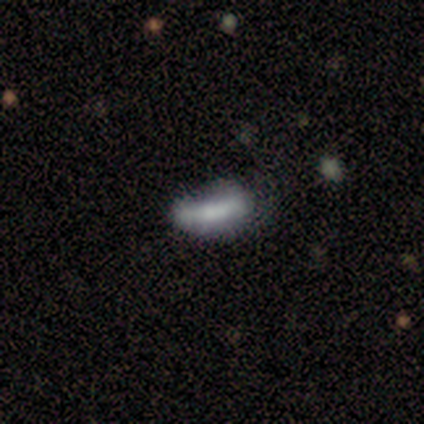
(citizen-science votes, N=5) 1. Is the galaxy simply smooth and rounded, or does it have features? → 80% featured or disk, 20% smooth, 0% star or artifact.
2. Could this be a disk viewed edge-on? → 75% no, 25% yes.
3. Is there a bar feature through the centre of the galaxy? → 33% strong (tied), 33% weak (tied), 33% no (tied).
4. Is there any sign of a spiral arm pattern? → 100% no, 0% yes.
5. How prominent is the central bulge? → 33% dominant (tied), 33% small (tied), 33% none (tied), 0% large, 0% moderate.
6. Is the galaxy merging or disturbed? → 40% minor disturbance (tied), 40% major disturbance (tied), 20% none, 0% merger.